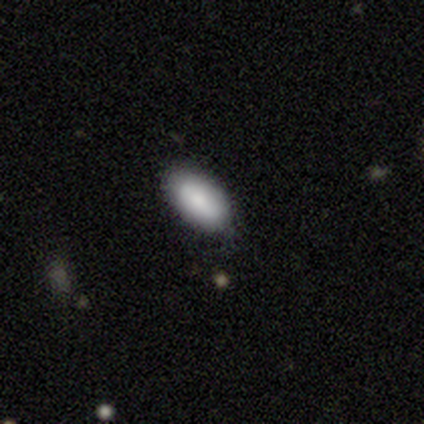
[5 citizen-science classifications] A smooth galaxy with no disk features (100%) that is in between round and cigar-shaped (80%).

Vote fractions:
- Smooth or featured? smooth: 100% / featured or disk: 0% / star or artifact: 0%
- How rounded? in between: 80% / cigar-shaped: 20% / round: 0%
- Merging? none: 80% / minor disturbance: 20% / major disturbance: 0% / merger: 0%